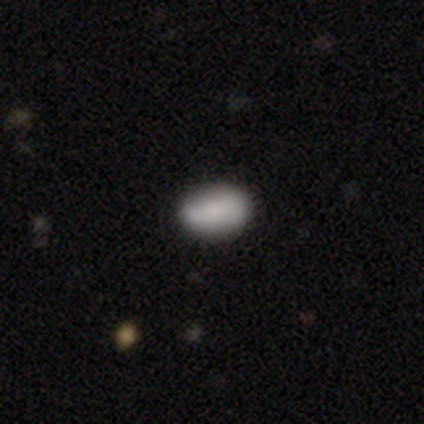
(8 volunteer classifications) Smooth or featured: smooth — 88% (star or artifact — 12%)
How rounded: in between — 71% (round — 29%)
Merging: none — 86% (major disturbance — 14%)